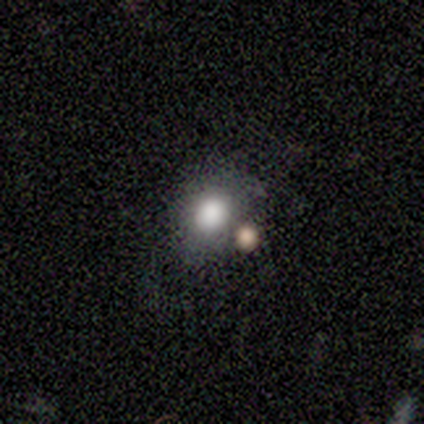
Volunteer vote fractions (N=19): smooth 79%, featured or disk 11%, star or artifact 11%. Down the decision tree: how rounded — in between (53%); merging — none (53%).